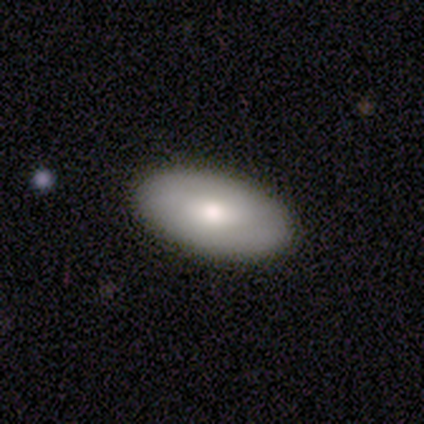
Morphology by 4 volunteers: This is likely a smooth galaxy (75%). How rounded: clearly in between (100%). Merging: likely none (67%).